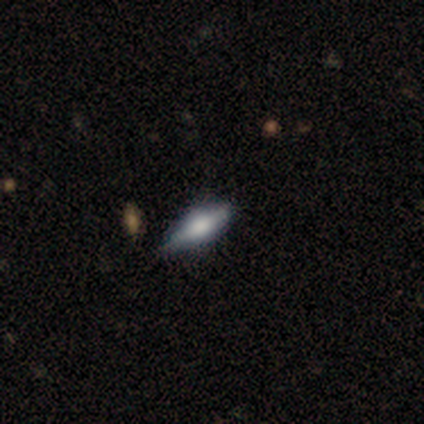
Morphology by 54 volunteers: This appears to be a featured or disk galaxy (50%) viewed edge-on (96%) with a rounded central bulge (81%). Merging: none (75%).